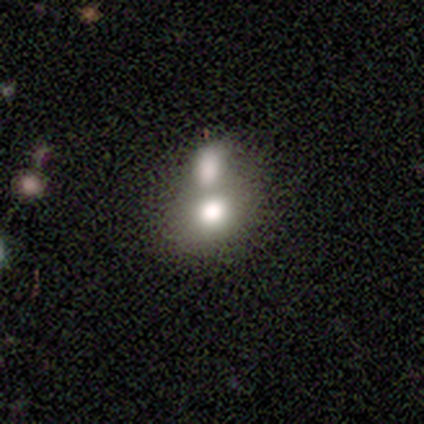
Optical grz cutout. It shows a smooth galaxy with no disk features (74%) that is round (50%). Merging: merger (78%).